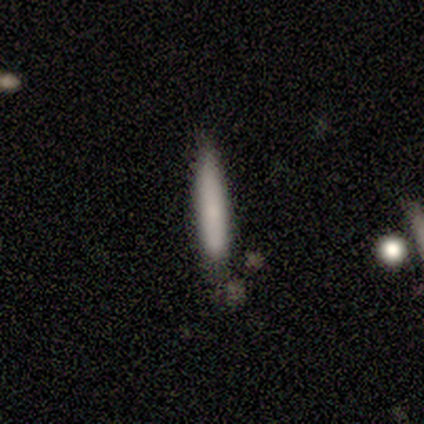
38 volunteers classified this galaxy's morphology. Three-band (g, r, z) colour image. It shows a smooth galaxy with no disk features (79%) that is cigar-shaped (100%). Merging: none (66%).